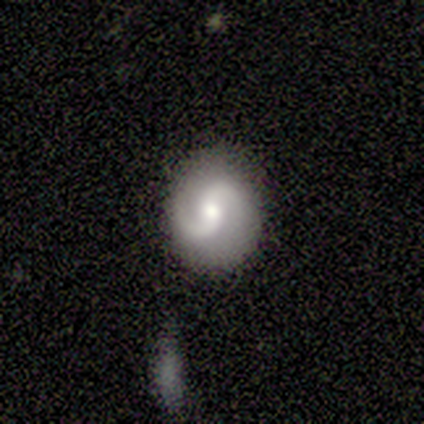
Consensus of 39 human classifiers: Volunteers were most divided on "spiral winding": medium: 58%, loose: 35%, tight: 6%. More confident: edge-on disk — no (100%); spiral arms — yes (100%); spiral arm count — 2 (97%); smooth or featured — featured or disk (79%); merging — none (78%); bulge size — moderate (61%); bar — no (58%).